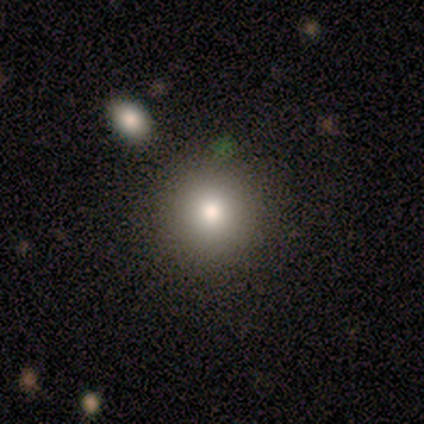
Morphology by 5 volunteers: Smooth or featured?
  - smooth: 80% *
  - featured or disk: 20%
  - star or artifact: 0%
How rounded?
  - round: 100% *
  - in between: 0%
  - cigar-shaped: 0%
Merging?
  - none: 100% *
  - minor disturbance: 0%
  - major disturbance: 0%
  - merger: 0%